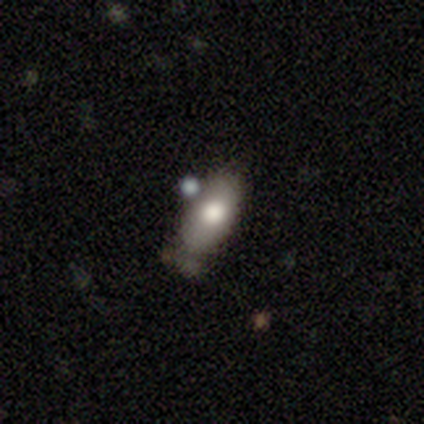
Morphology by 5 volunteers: Smooth or featured? featured or disk (60%)
Edge-on disk? no (67%)
Bar? no (100%)
Spiral arms? no (100%)
Bulge size? large (50%, tied with moderate)
Merging? minor disturbance (60%)